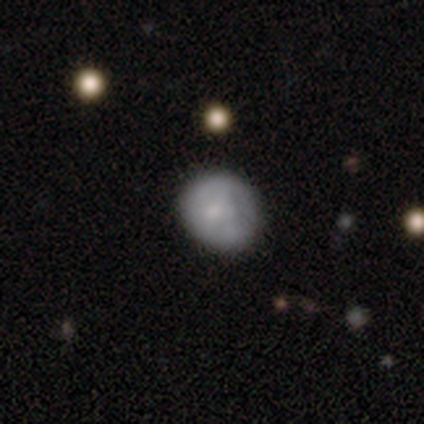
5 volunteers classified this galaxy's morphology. This appears to be a smooth galaxy with no disk features (100%) that is round (80%). Merging: none (100%).